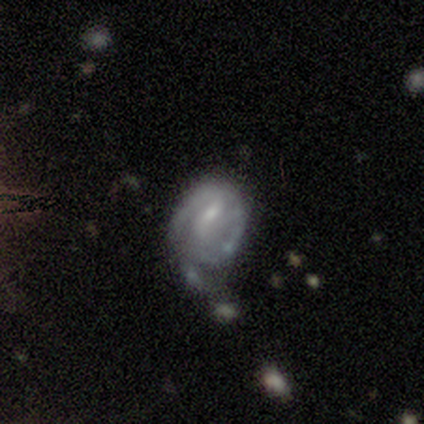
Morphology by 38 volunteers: type=featured or disk (68%); edge-on=no (96%); bar=weak (60%); spiral arms=yes (76%); winding=tight (47%); arm count=2 (53%); bulge=small (44%); merging=minor disturbance (35%).